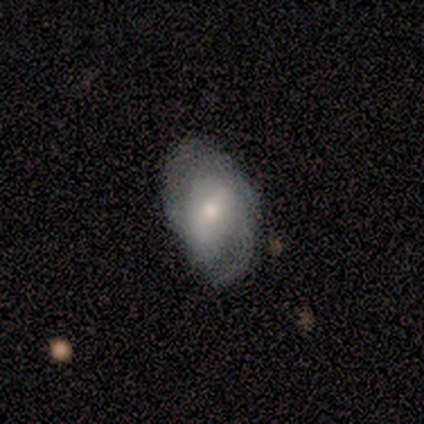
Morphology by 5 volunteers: Overall: featured or disk (60%; smooth 40%). Edge-on disk: no (100%). Bar: weak (67%; no 33%). Spiral arms: yes (100%). Spiral arm count: 2 (67%; can't tell 33%). Spiral winding: loose (67%; medium 33%). Bulge size: small (67%; moderate 33%). Merging: none (60%; major disturbance 40%).